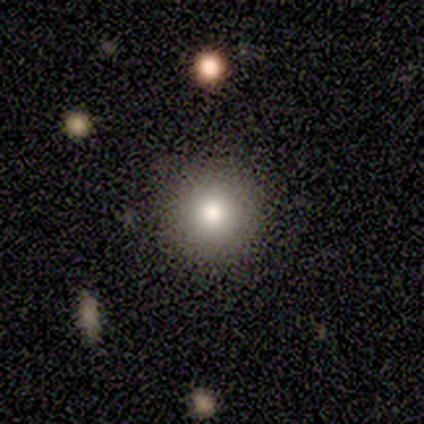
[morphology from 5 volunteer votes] Smooth or featured? 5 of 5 (100%) said smooth. How rounded? 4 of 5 (80%) said round. Merging? 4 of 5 (80%) said none.